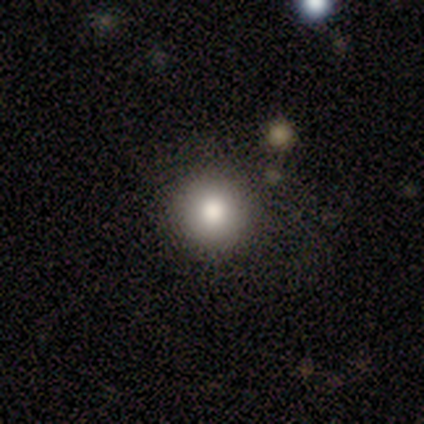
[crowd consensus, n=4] Q: Smooth or featured?
A: smooth (100%)
Q: How rounded?
A: round (100%)
Q: Merging?
A: none (100%)